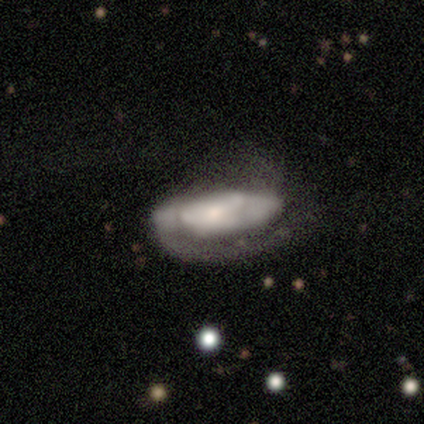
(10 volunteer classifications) Volunteers were most divided on "spiral winding" (2-way tie): tight: 40%, medium: 40%, loose: 20%; "spiral arm count" (2-way tie): 2: 40%, can't tell: 40%, 1: 20%, 3: 0%, 4: 0%, more than 4: 0%. More confident: edge-on disk — no (100%); smooth or featured — featured or disk (80%); bar — no (62%); spiral arms — yes (62%); bulge size — moderate (62%); merging — major disturbance (56%).